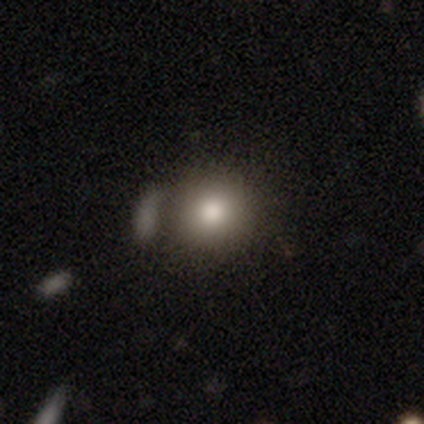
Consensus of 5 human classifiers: Smooth or featured? 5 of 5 (100%) said smooth. How rounded? 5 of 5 (100%) said round. Merging? 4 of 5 (80%) said merger.